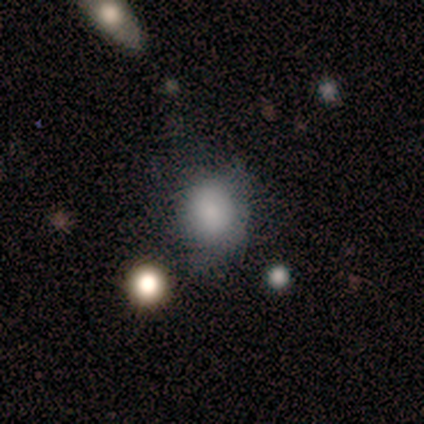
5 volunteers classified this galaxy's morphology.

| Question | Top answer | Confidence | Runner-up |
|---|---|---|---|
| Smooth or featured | smooth | 80% | star or artifact (20%) |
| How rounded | round | 50% | tied: in between (50%) |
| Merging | none | 75% | minor disturbance (25%) |